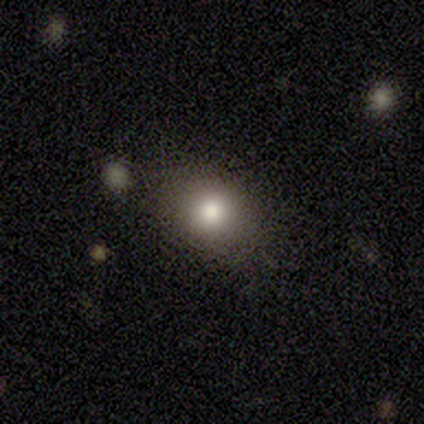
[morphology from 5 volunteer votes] Smooth or featured? smooth (100%)
How rounded? round (80%)
Merging? none (100%)